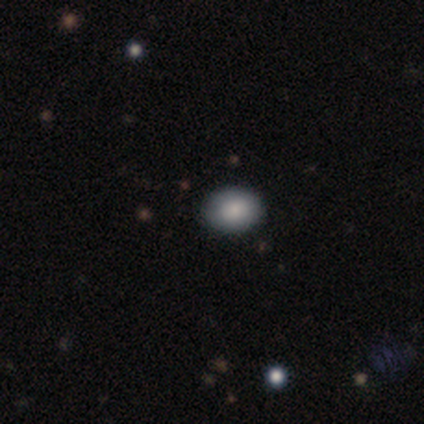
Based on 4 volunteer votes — Smooth or featured?
  - smooth: 100% *
  - featured or disk: 0%
  - star or artifact: 0%
How rounded?
  - in between: 100% *
  - round: 0%
  - cigar-shaped: 0%
Merging?
  - none: 100% *
  - minor disturbance: 0%
  - major disturbance: 0%
  - merger: 0%